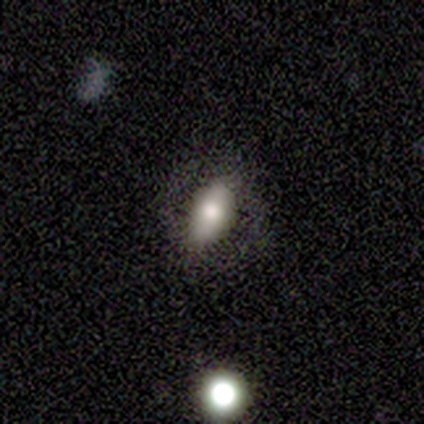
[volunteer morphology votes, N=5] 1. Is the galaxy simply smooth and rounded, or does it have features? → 40% smooth (tied), 40% featured or disk (tied), 20% star or artifact.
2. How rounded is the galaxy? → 50% in between (tied), 50% cigar-shaped (tied), 0% round.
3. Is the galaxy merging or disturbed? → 100% none, 0% minor disturbance, 0% major disturbance, 0% merger.